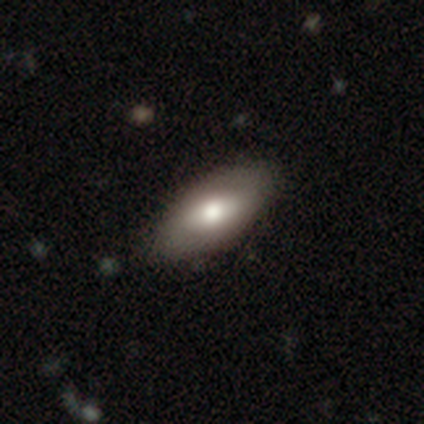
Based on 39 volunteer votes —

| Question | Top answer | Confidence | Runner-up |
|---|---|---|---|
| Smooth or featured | smooth | 59% | featured or disk (36%) |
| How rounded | in between | 91% | cigar-shaped (9%) |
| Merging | none | 65% | minor disturbance (14%) |